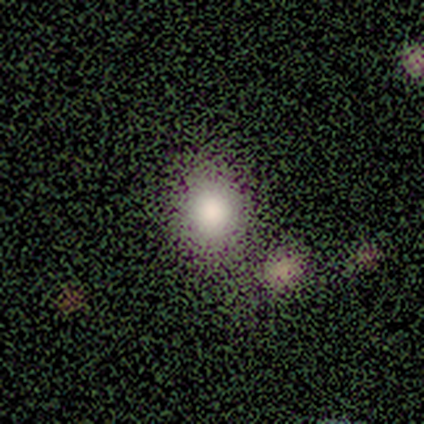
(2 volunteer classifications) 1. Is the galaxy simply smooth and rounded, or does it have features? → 100% star or artifact, 0% smooth, 0% featured or disk.